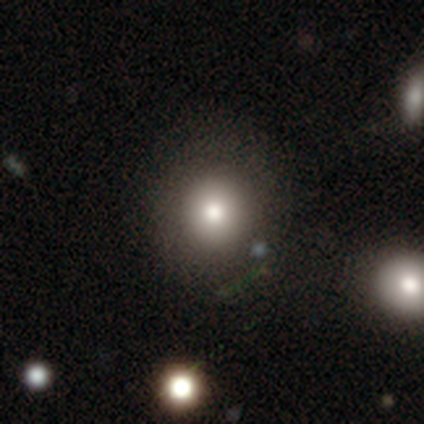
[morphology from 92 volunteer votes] This appears to be a smooth galaxy with no disk features (68%) that is round (84%). Merging: none (80%).